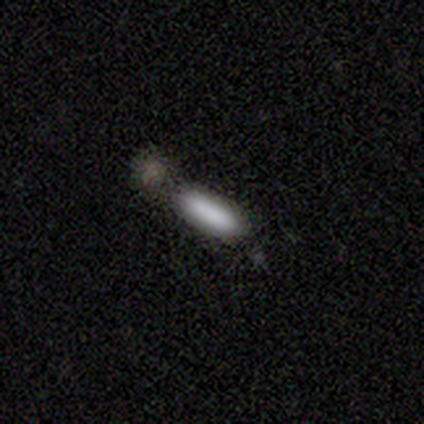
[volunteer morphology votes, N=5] This is clearly a smooth galaxy (100%). How rounded: clearly cigar-shaped (80%). Merging: likely none (60%).